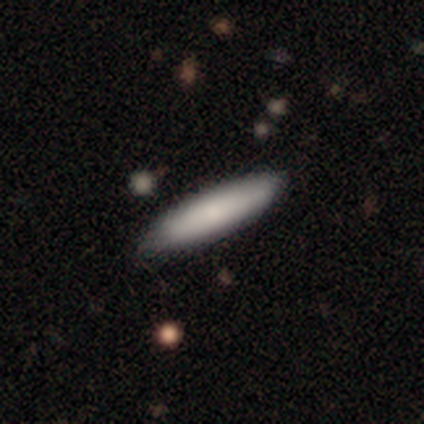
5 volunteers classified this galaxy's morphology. smooth_or_featured: smooth (p=0.80) [alt: featured or disk p=0.20]
how_rounded: cigar-shaped (p=0.75) [alt: in between p=0.25]
merging: none (p=1.00)